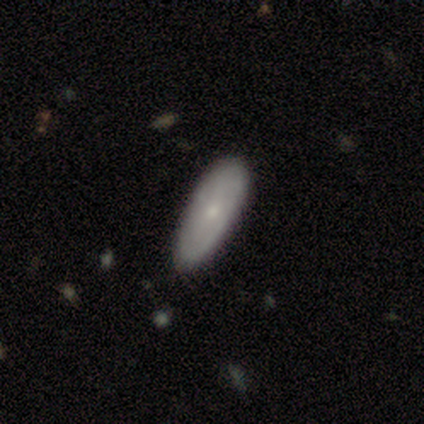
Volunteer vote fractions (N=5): A smooth galaxy with no disk features (60%) that is in between round and cigar-shaped (100%).

Vote fractions:
- Smooth or featured? smooth: 60% / featured or disk: 20% / star or artifact: 20%
- How rounded? in between: 100% / round: 0% / cigar-shaped: 0%
- Merging? none: 100% / minor disturbance: 0% / major disturbance: 0% / merger: 0%